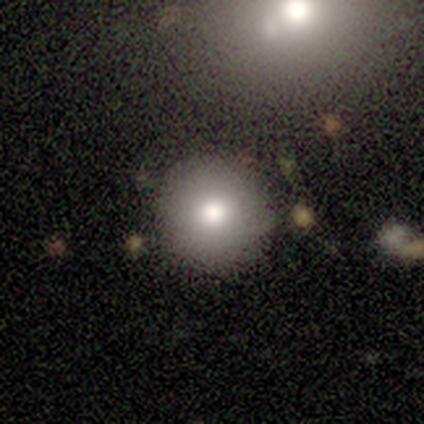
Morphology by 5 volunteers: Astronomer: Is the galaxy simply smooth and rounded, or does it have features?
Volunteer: featured or disk — 100%.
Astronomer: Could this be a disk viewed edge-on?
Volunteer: no — 100%.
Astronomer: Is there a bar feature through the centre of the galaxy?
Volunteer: no — 100%.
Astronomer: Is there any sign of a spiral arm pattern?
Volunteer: no — 100%.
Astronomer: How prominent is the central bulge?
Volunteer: moderate — 80%.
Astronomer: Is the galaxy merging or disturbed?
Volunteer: none — 80%.